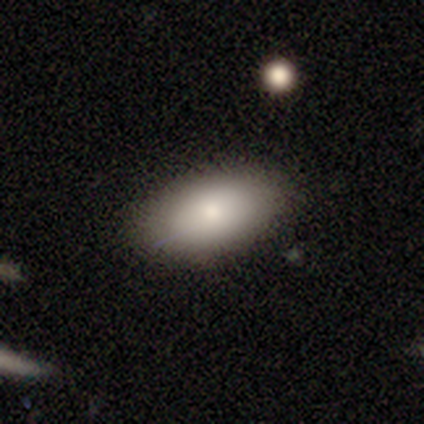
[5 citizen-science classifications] A smooth galaxy with no disk features (100%) that is in between round and cigar-shaped (100%). Merging: none (100%).